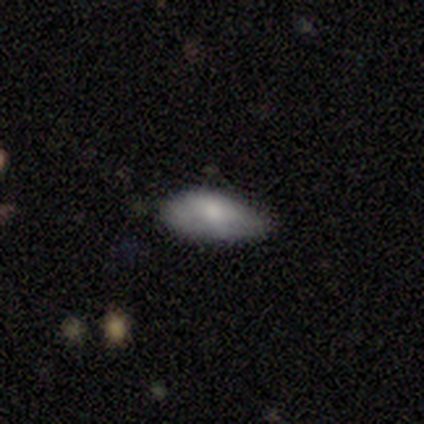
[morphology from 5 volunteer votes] This is clearly a smooth galaxy (80%). How rounded: clearly in between (100%). Merging: likely none (75%).